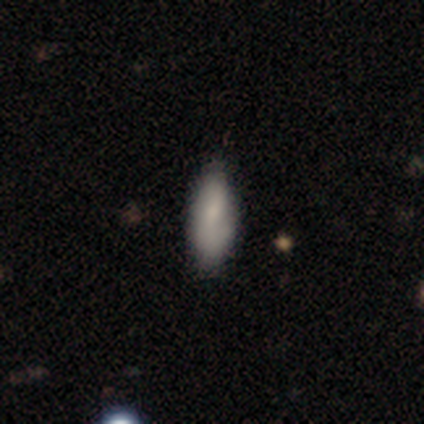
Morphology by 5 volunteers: Q: Smooth or featured?
A: smooth (80%); runner-up: star or artifact (20%)
Q: How rounded?
A: in between (75%); runner-up: cigar-shaped (25%)
Q: Merging?
A: none (50%); runner-up: major disturbance (25%)